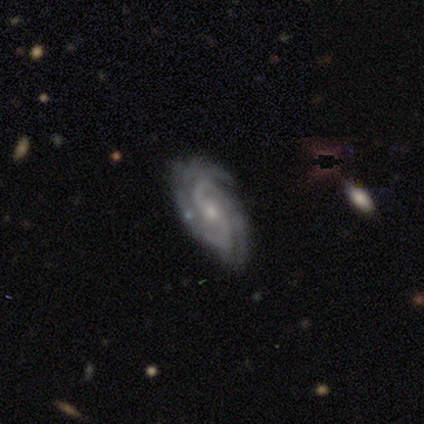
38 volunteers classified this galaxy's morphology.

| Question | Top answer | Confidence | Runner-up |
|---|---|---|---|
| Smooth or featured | featured or disk | 92% | smooth (5%) |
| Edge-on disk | no | 94% | yes (6%) |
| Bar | weak | 48% | no (39%) |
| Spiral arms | yes | 94% | no (6%) |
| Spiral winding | medium | 65% | tight (19%) |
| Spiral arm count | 2 | 58% | 4 (16%) |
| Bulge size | small | 58% | moderate (39%) |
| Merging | none | 78% | minor disturbance (16%) |